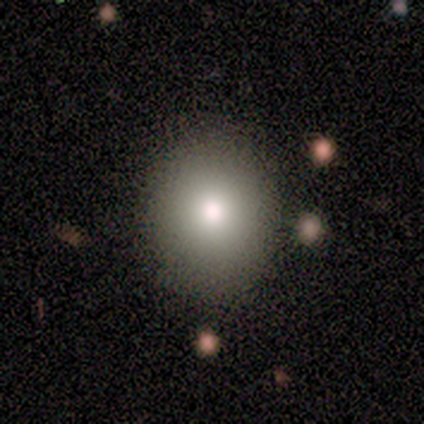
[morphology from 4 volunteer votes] Smooth or featured? smooth (75%)
How rounded? round (67%)
Merging? none (100%)